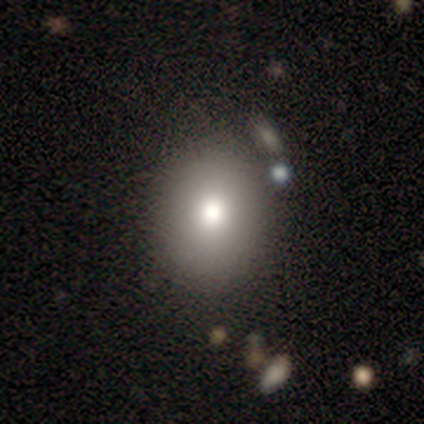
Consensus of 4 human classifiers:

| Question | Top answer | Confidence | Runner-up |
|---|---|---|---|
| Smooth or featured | featured or disk | 50% | smooth (25%) |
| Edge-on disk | no | 100% | — |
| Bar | no | 100% | — |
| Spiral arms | no | 100% | — |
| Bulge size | large | 50% | tied: moderate (50%) |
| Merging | none | 67% | minor disturbance (33%) |